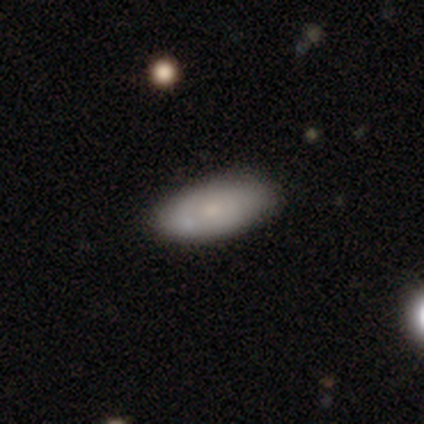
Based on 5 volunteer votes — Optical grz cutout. It shows a smooth galaxy with no disk features (80%) that is in between round and cigar-shaped (75%). Merging: none (80%).